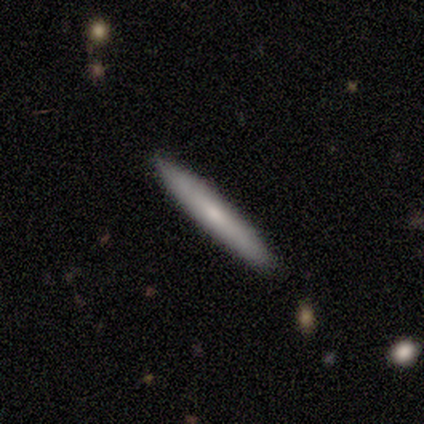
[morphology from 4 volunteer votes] Smooth or featured? smooth (50%, tied with featured or disk)
How rounded? cigar-shaped (100%)
Merging? none (75%)